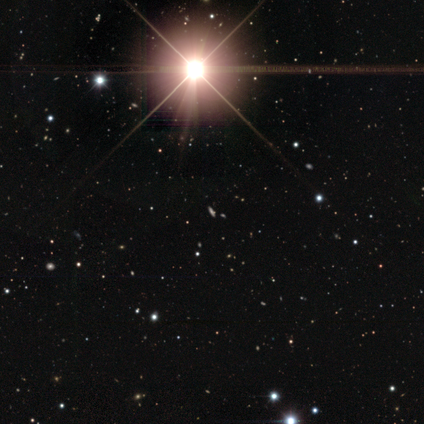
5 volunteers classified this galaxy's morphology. This appears to be a star or artifact, not a galaxy (100%).